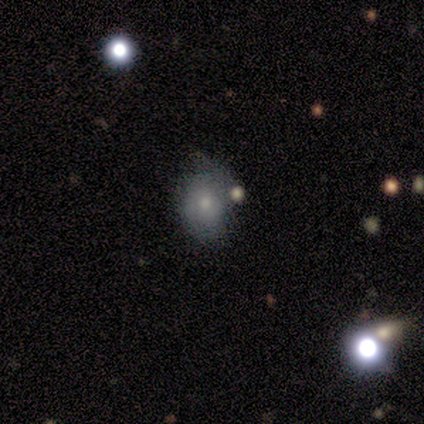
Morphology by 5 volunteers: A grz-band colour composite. It shows a smooth galaxy with no disk features (80%) that is round (50%, tied with in between). Merging: none (50%).